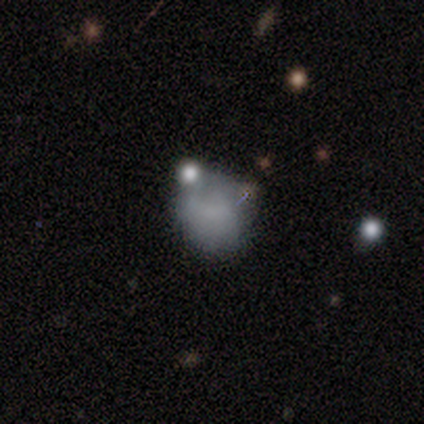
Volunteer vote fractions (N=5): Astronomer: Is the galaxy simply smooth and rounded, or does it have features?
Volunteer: smooth — 80%.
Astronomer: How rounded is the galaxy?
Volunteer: round — 100%.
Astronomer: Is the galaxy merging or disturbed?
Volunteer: none — 60%.